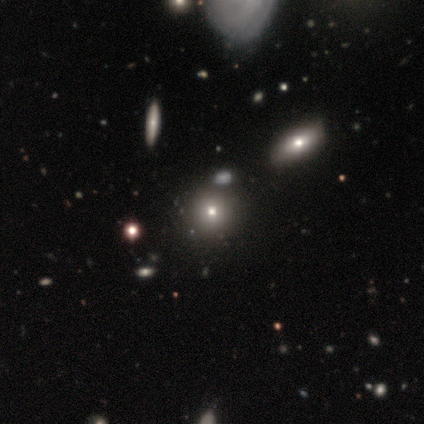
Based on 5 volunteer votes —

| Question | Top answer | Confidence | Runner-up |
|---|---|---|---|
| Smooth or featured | smooth | 80% | featured or disk (20%) |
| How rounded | round | 100% | — |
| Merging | none | 80% | major disturbance (20%) |